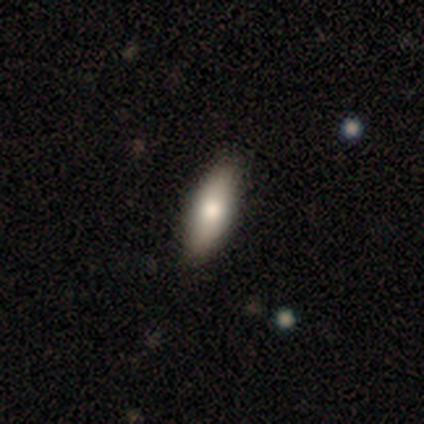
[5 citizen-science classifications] A smooth galaxy with no disk features (80%) that is in between round and cigar-shaped (100%). Merging: none (75%).